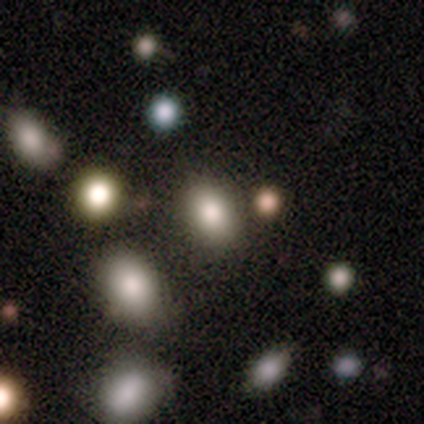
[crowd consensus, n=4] This is likely a smooth galaxy (75%). How rounded: clearly in between (100%). Merging: likely none (75%).